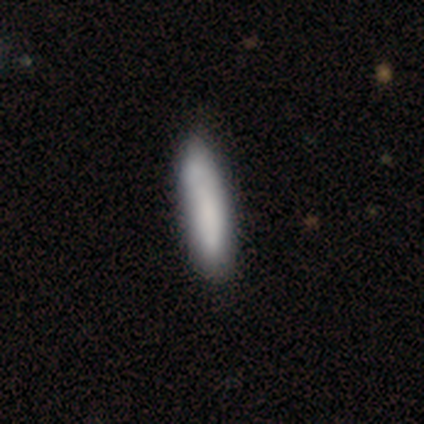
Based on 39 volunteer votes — Q: Smooth or featured?
A: smooth (79%); runner-up: featured or disk (18%)
Q: How rounded?
A: cigar-shaped (74%); runner-up: in between (26%)
Q: Merging?
A: none (58%); runner-up: minor disturbance (8%)